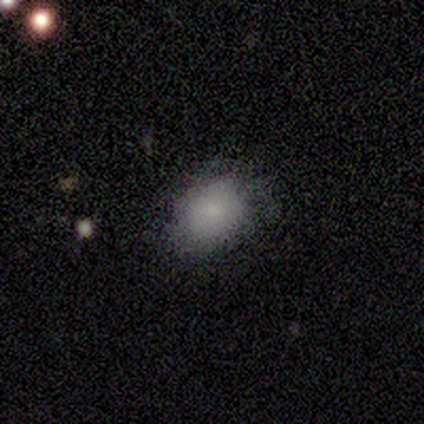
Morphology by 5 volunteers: Smooth or featured? smooth (80%)
How rounded? round (50%, tied with in between)
Merging? none (100%)